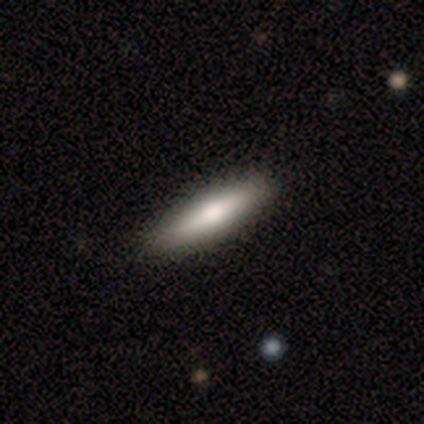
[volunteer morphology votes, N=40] Smooth or featured? 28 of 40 (70%) said smooth. How rounded? 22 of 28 (79%) said cigar-shaped. Merging? 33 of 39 (85%) said none.